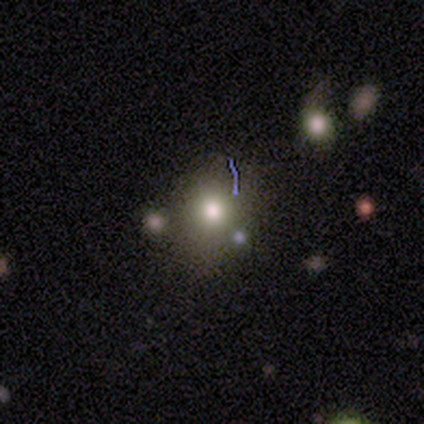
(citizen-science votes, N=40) Overall: smooth (65%). How rounded: round (50%, tied with in between). Merging: none (68%).